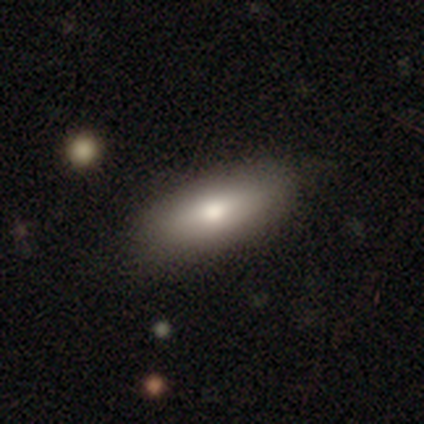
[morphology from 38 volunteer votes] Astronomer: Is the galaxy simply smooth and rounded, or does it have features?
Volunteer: smooth — 74%.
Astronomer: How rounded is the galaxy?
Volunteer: in between — 64%.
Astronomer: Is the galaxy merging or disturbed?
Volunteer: none — 78%.